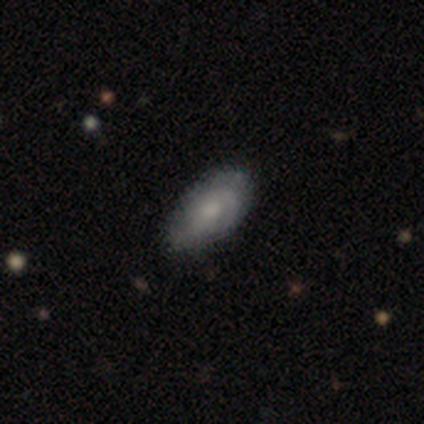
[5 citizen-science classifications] Smooth or featured? 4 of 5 (80%) said featured or disk. Edge-on disk? 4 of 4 (100%) said no. Bar? 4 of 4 (100%) said no. Spiral arms? 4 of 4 (100%) said yes. Spiral winding? 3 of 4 (75%) said tight. Spiral arm count? 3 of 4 (75%) said can't tell. Bulge size? 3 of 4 (75%) said moderate. Merging? 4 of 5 (80%) said none.